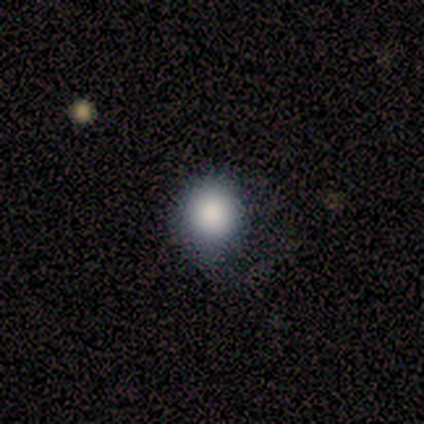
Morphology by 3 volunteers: This appears to be a smooth galaxy with no disk features (100%) that is round (100%). Merging: none (67%).